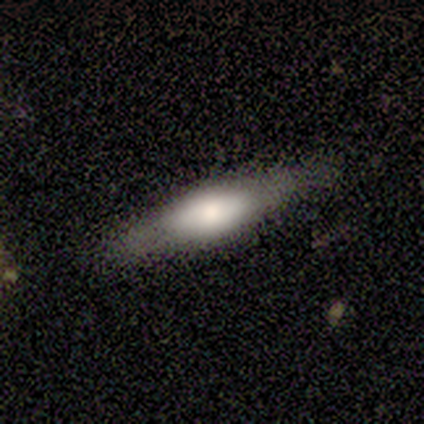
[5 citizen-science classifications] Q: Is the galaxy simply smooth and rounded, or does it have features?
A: featured or disk — 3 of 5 (60%).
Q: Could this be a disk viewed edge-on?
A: yes — 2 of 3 (67%).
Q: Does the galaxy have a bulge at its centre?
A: rounded — 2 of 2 (100%).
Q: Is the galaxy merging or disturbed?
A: none — 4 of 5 (80%).